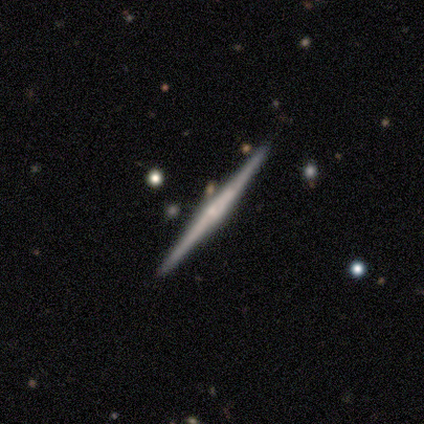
Smooth or featured?
  - featured or disk: 100% *
  - smooth: 0%
  - star or artifact: 0%
Edge-on disk?
  - yes: 100% *
  - no: 0%
Edge-on bulge?
  - none: 40% * (tied)
  - rounded: 40% * (tied)
  - boxy: 20%
Merging?
  - none: 100% *
  - minor disturbance: 0%
  - major disturbance: 0%
  - merger: 0%